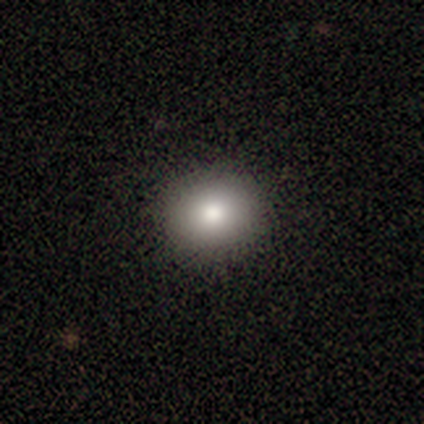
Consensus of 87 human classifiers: Smooth or featured? smooth (80%)
How rounded? round (69%)
Merging? none (93%)